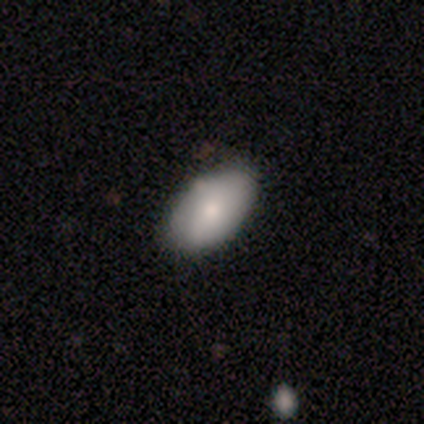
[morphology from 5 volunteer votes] type=smooth (100%); roundness=in between (100%); merging=none (60%).